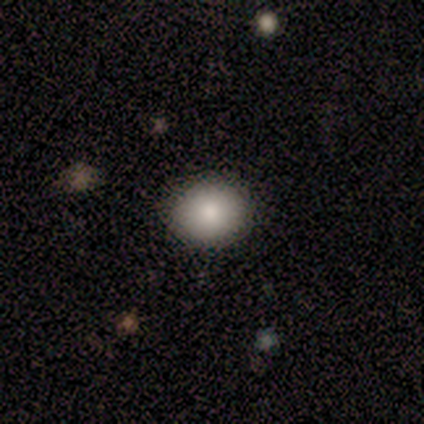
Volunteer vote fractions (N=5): Volunteers were most divided on "how rounded" (2-way tie): round: 50%, in between: 50%, cigar-shaped: 0%. More confident: merging — none (100%); smooth or featured — smooth (80%).